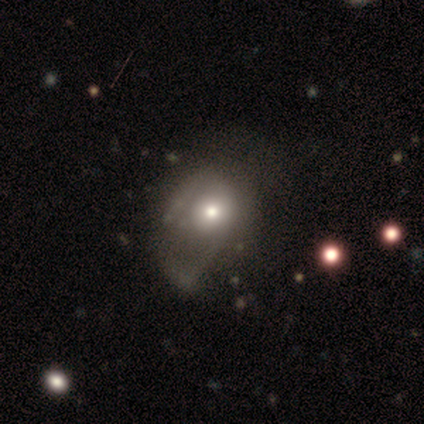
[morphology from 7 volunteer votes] Overall: smooth (57%; featured or disk 29%). How rounded: round (75%). Merging: major disturbance (50%; minor disturbance 33%).